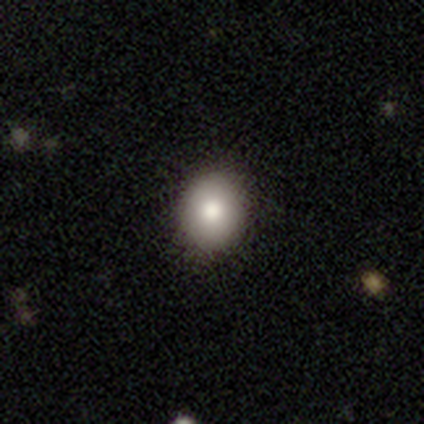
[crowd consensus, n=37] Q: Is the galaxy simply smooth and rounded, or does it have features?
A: smooth — 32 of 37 (86%).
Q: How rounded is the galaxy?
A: round — 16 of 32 (50%, tied with in between).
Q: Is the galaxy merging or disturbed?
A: none — 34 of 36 (94%).